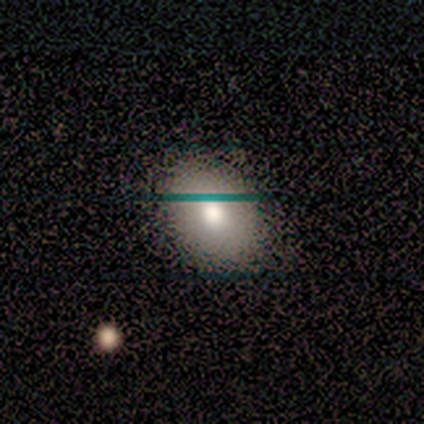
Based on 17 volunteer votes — smooth-or-featured: smooth: 71% | featured or disk: 18% | star or artifact: 12%
  how-rounded: in between: 83% | round: 17% | cigar-shaped: 0%
  merging: none: 87% | minor disturbance: 7% | major disturbance: 7% | merger: 0%